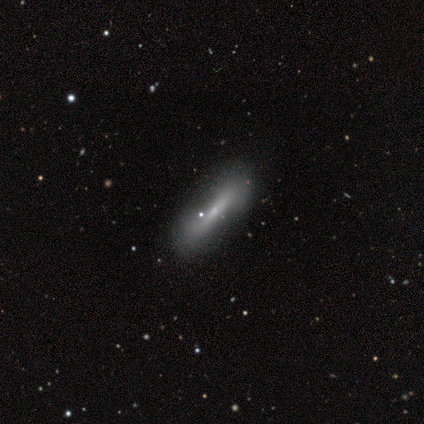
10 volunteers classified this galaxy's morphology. smooth-or-featured: smooth: 80% | star or artifact: 20% | featured or disk: 0%
  how-rounded: cigar-shaped: 62% | in between: 38% | round: 0%
  merging: none: 75% | minor disturbance: 25% | major disturbance: 0% | merger: 0%